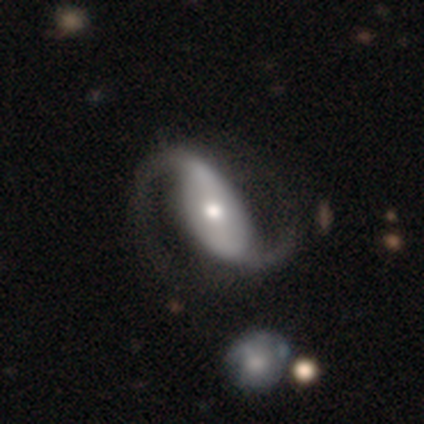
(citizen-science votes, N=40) smooth-or-featured: featured or disk: 98% | smooth: 2% | star or artifact: 0%
  disk-edge-on: no: 100% | yes: 0%
    bar: strong: 49% | weak: 26% | no: 26%
    has-spiral-arms: yes: 100% | no: 0%
      spiral-winding: loose: 54% | medium: 41% | tight: 5%
      spiral-arm-count: 2: 100% | 1: 0% | 3: 0% | 4: 0% | more than 4: 0% | can't tell: 0%
    bulge-size: moderate: 51% | small: 26% | large: 23% | dominant: 0% | none: 0%
  merging: none: 65% | minor disturbance: 5% | major disturbance: 2% | merger: 2%